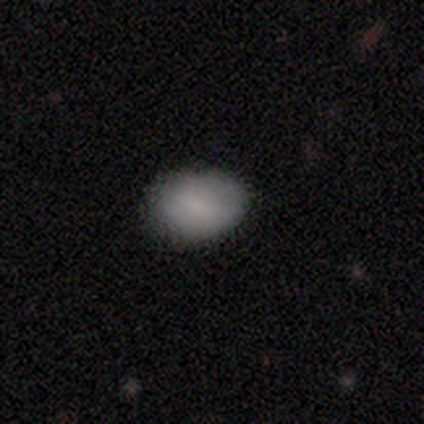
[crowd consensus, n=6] Volunteers were most divided on "how rounded": in between: 83%, round: 17%, cigar-shaped: 0%. More confident: smooth or featured — smooth (100%); merging — none (83%).